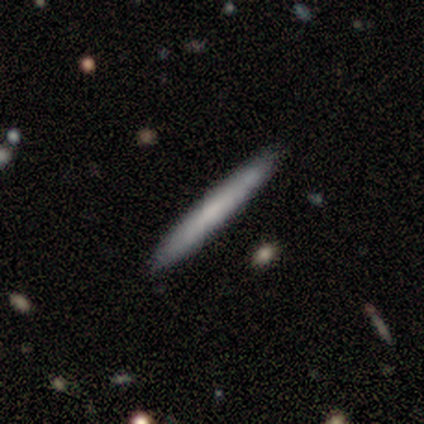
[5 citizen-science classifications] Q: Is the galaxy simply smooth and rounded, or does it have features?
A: featured or disk — 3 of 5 (60%).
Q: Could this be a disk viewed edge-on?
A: yes — 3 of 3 (100%).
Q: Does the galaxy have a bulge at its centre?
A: none — 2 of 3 (67%).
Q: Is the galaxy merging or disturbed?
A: none — 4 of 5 (80%).